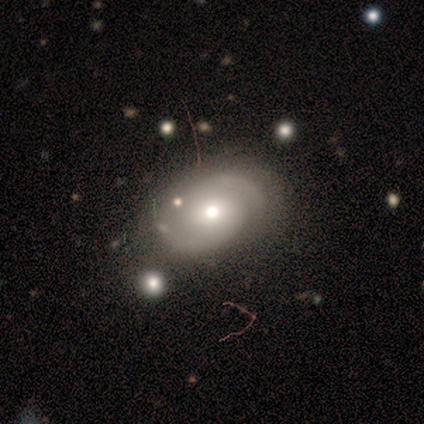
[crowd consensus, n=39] Overall: featured or disk (62%; smooth 28%). Edge-on disk: no (100%). Bar: no (67%; weak 29%). Spiral arms: yes (92%). Spiral arm count: 2 (91%). Spiral winding: medium (59%; tight 32%). Bulge size: moderate (71%). Merging: none (63%).